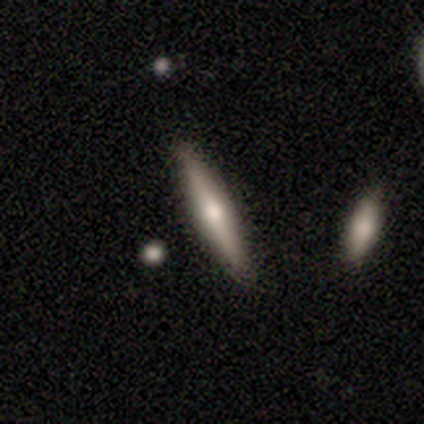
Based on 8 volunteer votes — Q: Smooth or featured?
A: featured or disk (88%); runner-up: smooth (12%)
Q: Edge-on disk?
A: yes (100%)
Q: Edge-on bulge?
A: rounded (100%)
Q: Merging?
A: none (100%)